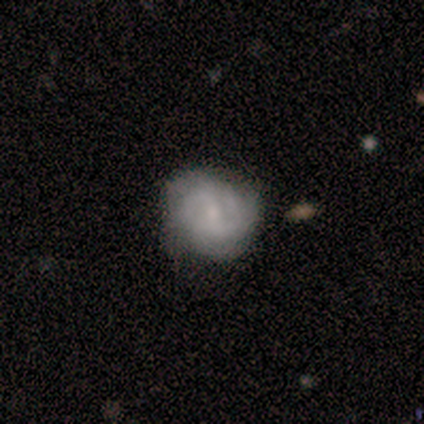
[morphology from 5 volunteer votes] smooth-or-featured: featured or disk: 80% | smooth: 20% | star or artifact: 0%
  disk-edge-on: no: 100% | yes: 0%
    bar: no: 50% | strong: 25% | weak: 25%
    has-spiral-arms: yes: 100% | no: 0%
      spiral-winding: tight: 100% | medium: 0% | loose: 0%
      spiral-arm-count: 3: 50% | 1: 25% | 4: 25% | 2: 0% | more than 4: 0% | can't tell: 0%
    bulge-size: small: 75% | moderate: 25% | dominant: 0% | large: 0% | none: 0%
  merging: none: 100% | minor disturbance: 0% | major disturbance: 0% | merger: 0%